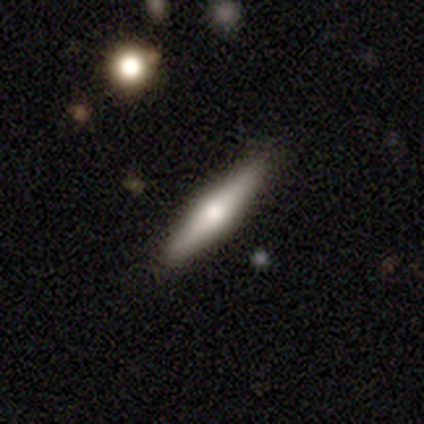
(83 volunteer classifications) This appears to be a smooth galaxy with no disk features (48%) that is cigar-shaped (90%). Merging: none (86%).